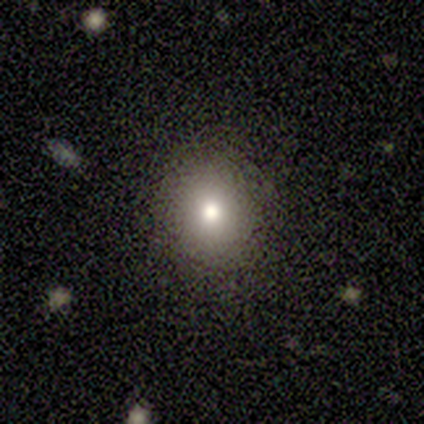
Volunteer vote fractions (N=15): Smooth or featured? 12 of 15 (80%) said smooth. How rounded? 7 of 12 (58%) said round. Merging? 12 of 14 (86%) said none.